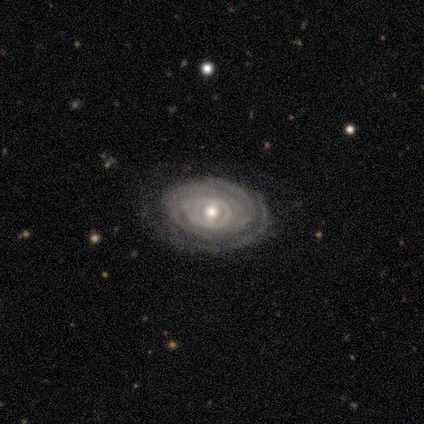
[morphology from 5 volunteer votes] Volunteers were most divided on "spiral arm count" (3-way tie): 2: 33%, 4: 33%, more than 4: 33%, 1: 0%, 3: 0%, can't tell: 0%. More confident: edge-on disk — no (100%); spiral arms — yes (100%); bulge size — moderate (100%); bar — weak (67%); spiral winding — tight (67%); smooth or featured — featured or disk (60%); merging — none (60%).